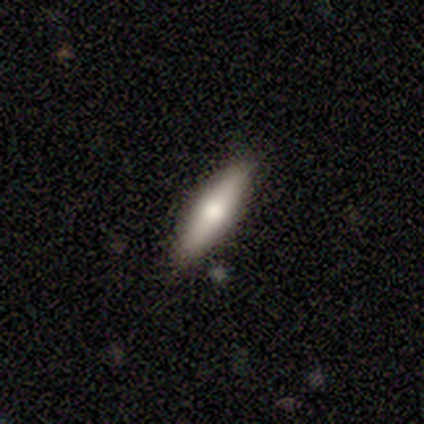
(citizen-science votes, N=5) Smooth or featured? smooth (60%)
How rounded? cigar-shaped (67%)
Merging? none (100%)